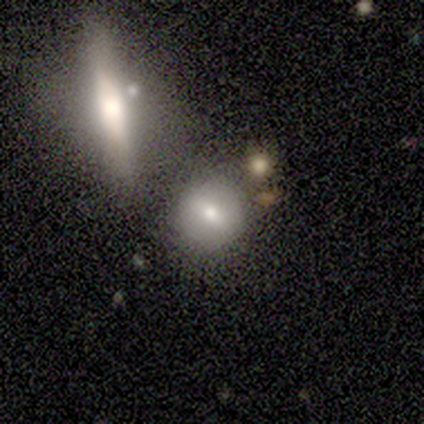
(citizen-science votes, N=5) A smooth galaxy with no disk features (40%, tied with star or artifact) that is round (100%).

Vote fractions:
- Smooth or featured? smooth: 40% (tied) / star or artifact: 40% (tied) / featured or disk: 20%
- How rounded? round: 100% / in between: 0% / cigar-shaped: 0%
- Merging? merger: 67% / none: 33% / minor disturbance: 0% / major disturbance: 0%